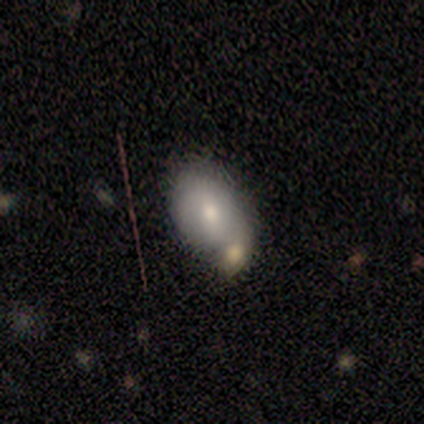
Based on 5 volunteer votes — smooth-or-featured: smooth: 80% | featured or disk: 20% | star or artifact: 0%
  how-rounded: in between: 75% | round: 25% | cigar-shaped: 0%
  merging: merger: 60% | none: 40% | minor disturbance: 0% | major disturbance: 0%